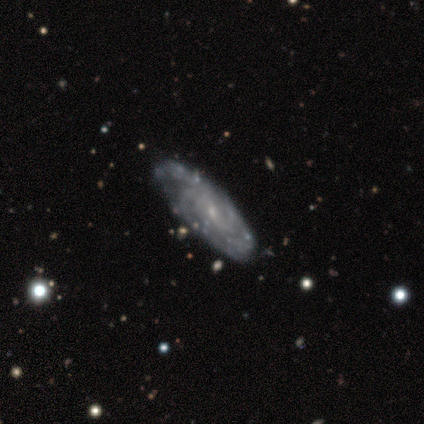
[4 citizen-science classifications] Overall: featured or disk (75%). Edge-on disk: no (100%). Bar: no (67%; weak 33%). Spiral arms: yes (100%). Spiral arm count: 2 (33%, tied with 3 and more than 4). Spiral winding: tight (67%; loose 33%). Bulge size: small (100%). Merging: none (100%).